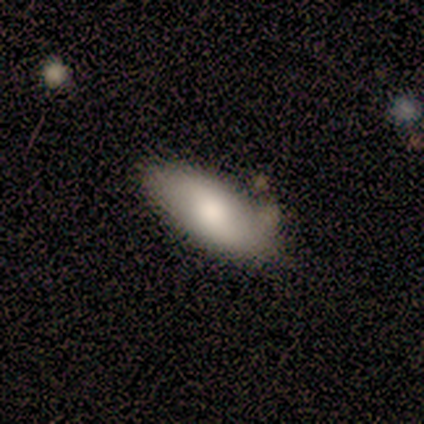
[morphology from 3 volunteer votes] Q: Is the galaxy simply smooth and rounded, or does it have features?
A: smooth — 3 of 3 (100%).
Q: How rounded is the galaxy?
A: in between — 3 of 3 (100%).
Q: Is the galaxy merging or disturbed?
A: none — 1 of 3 (33%, tied with minor disturbance and merger).